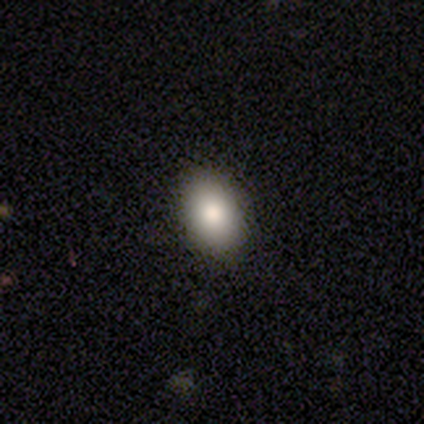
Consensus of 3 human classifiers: smooth-or-featured: smooth: 100% | featured or disk: 0% | star or artifact: 0%
  how-rounded: in between: 100% | round: 0% | cigar-shaped: 0%
  merging: none: 100% | minor disturbance: 0% | major disturbance: 0% | merger: 0%